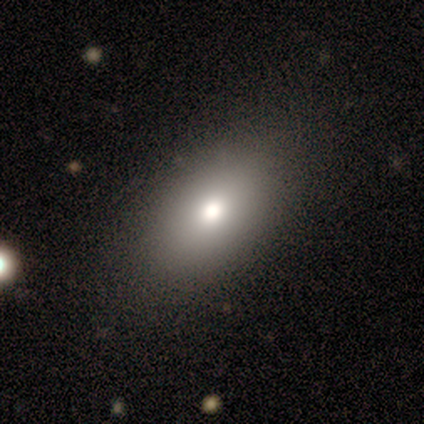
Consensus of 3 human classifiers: Smooth or featured?
  - smooth: 100% *
  - featured or disk: 0%
  - star or artifact: 0%
How rounded?
  - round: 67% *
  - in between: 33%
  - cigar-shaped: 0%
Merging?
  - none: 100% *
  - minor disturbance: 0%
  - major disturbance: 0%
  - merger: 0%